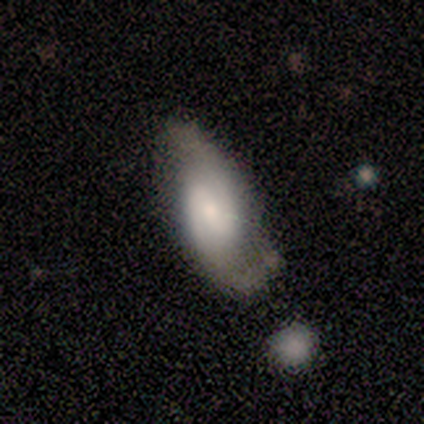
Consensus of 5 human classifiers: This appears to be a featured or disk galaxy (100%) with a strong bar (40%, tied with weak), 2 (100%) tight (40%, tied with medium) spiral arms (100%) and a moderate central bulge (80%). Merging: minor disturbance (60%).